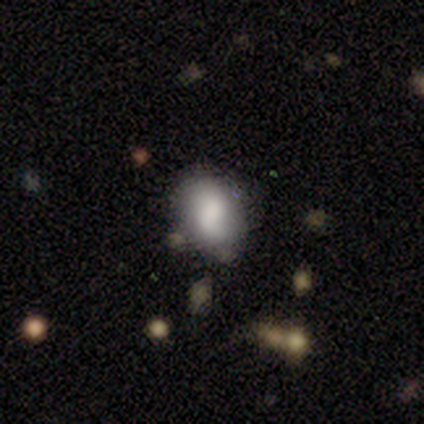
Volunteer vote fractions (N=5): Overall: smooth (80%). How rounded: in between (100%). Merging: none (75%).